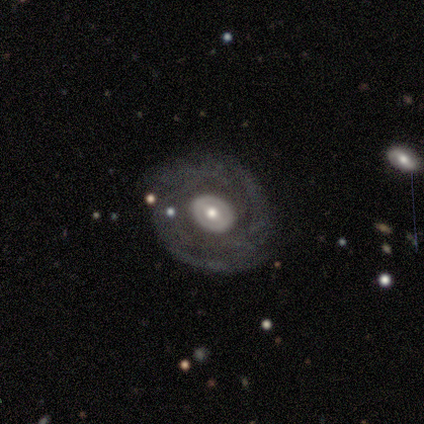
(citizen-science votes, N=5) A smooth galaxy with no disk features (60%) that is round (67%). Merging: none (50%).